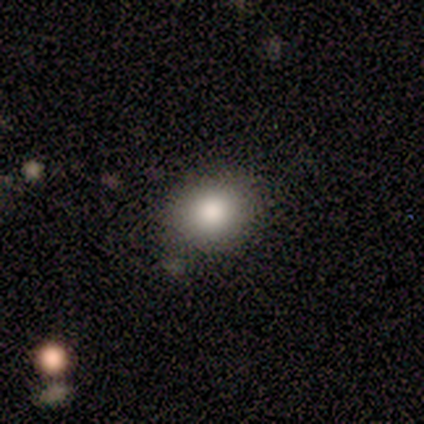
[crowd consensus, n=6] smooth_or_featured: smooth (p=0.83) [alt: featured or disk p=0.17]
how_rounded: round (p=0.60) [alt: in between p=0.40]
merging: none (p=1.00)